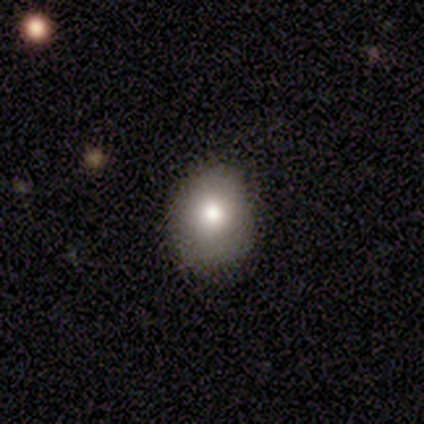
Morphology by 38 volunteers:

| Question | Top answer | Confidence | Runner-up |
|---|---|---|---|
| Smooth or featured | smooth | 82% | featured or disk (11%) |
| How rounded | round | 61% | in between (39%) |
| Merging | none | 74% | minor disturbance (23%) |